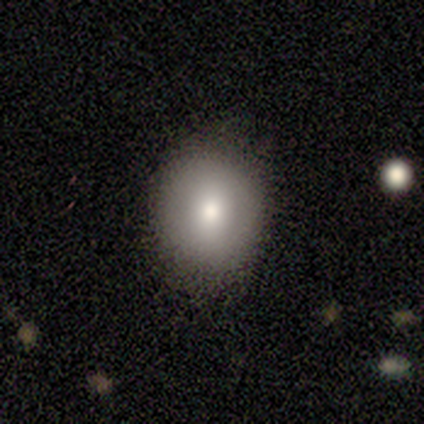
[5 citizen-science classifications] Smooth or featured: smooth — 80% (featured or disk — 20%)
How rounded: in between — 75% (round — 25%)
Merging: none — 80% (minor disturbance — 20%)